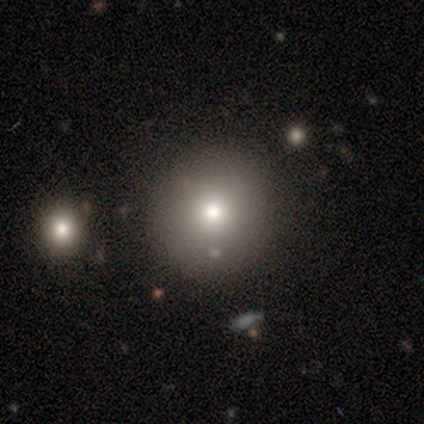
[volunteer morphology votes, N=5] This appears to be a smooth galaxy with no disk features (80%) that is round (100%). Merging: none (100%).